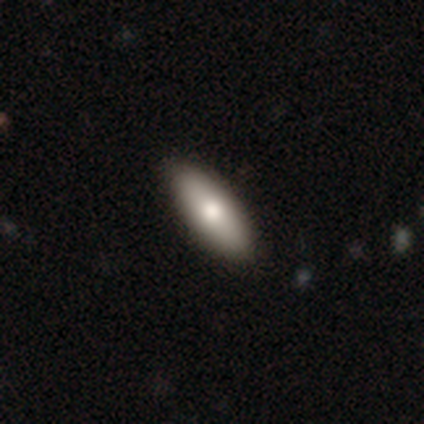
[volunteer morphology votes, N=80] smooth-or-featured: smooth: 81% | featured or disk: 15% | star or artifact: 4%
  how-rounded: in between: 75% | cigar-shaped: 25% | round: 0%
  merging: none: 47% | minor disturbance: 5% | merger: 1% | major disturbance: 0%